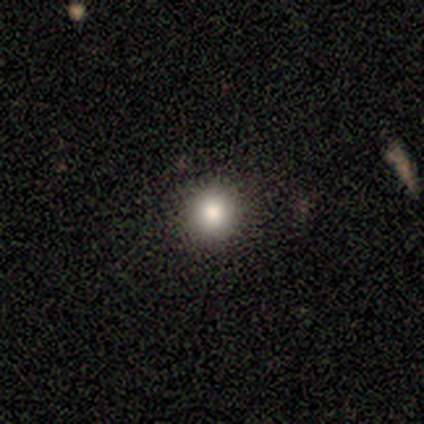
A smooth galaxy with no disk features (100%) that is round (100%).

Vote fractions:
- Smooth or featured? smooth: 100% / featured or disk: 0% / star or artifact: 0%
- How rounded? round: 100% / in between: 0% / cigar-shaped: 0%
- Merging? none: 100% / minor disturbance: 0% / major disturbance: 0% / merger: 0%